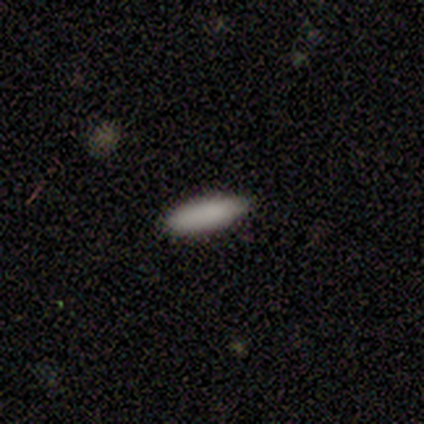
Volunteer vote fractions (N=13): smooth_or_featured: smooth (p=0.92) [alt: featured or disk p=0.08]
how_rounded: in between (p=0.50) [tied with: cigar-shaped p=0.50]
merging: none (p=0.77) [alt: minor disturbance p=0.23]